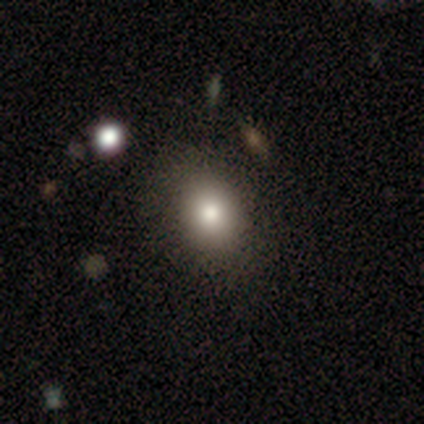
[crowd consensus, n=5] Smooth or featured? smooth (60%)
How rounded? in between (67%)
Merging? none (50%)